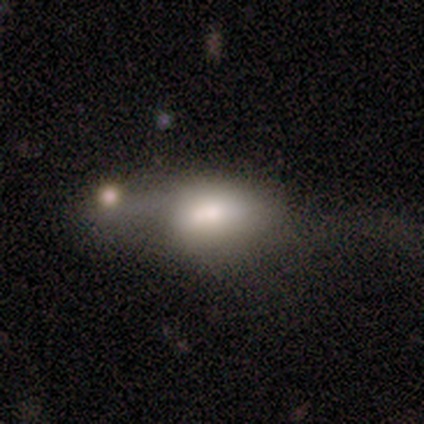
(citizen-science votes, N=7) This appears to be a smooth galaxy with no disk features (86%) that is in between round and cigar-shaped (67%). Merging: merger (50%).